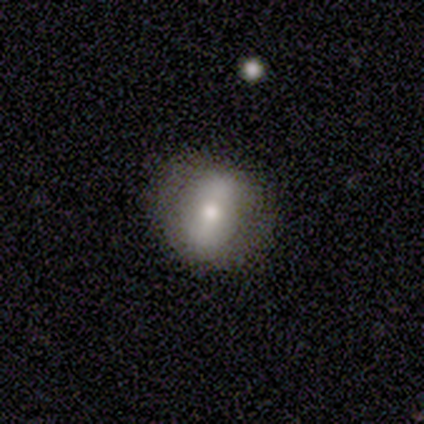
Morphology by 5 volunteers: Smooth or featured: smooth — 60% (featured or disk — 40%)
How rounded: round — 67% (in between — 33%)
Merging: none — 80% (minor disturbance — 20%)